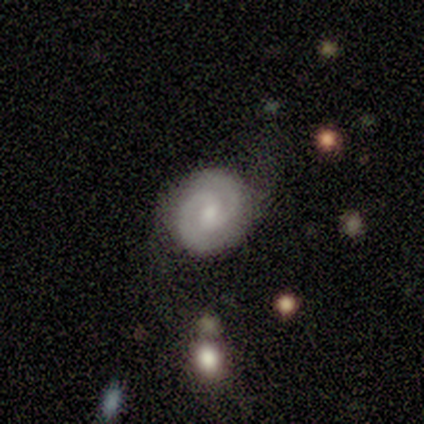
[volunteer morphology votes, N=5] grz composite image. It shows a featured or disk galaxy (80%) with a weak bar (50%, tied with no), 2 (100%) tight (50%, tied with medium) spiral arms (100%) and a moderate central bulge (50%, tied with small). Merging: none (80%).